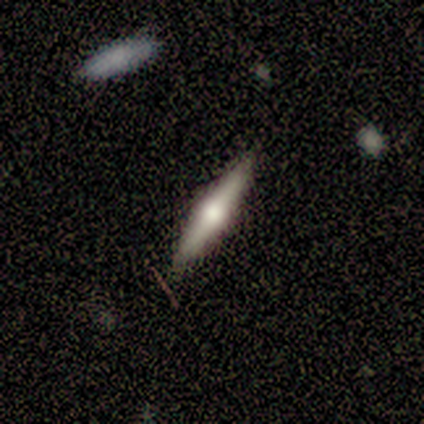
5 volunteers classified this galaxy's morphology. A featured or disk galaxy (60%) viewed edge-on (100%) with a rounded central bulge (100%).

Vote fractions:
- Smooth or featured? featured or disk: 60% / smooth: 40% / star or artifact: 0%
- Edge-on disk? yes: 100% / no: 0%
- Edge-on bulge? rounded: 100% / boxy: 0% / none: 0%
- Merging? none: 80% / major disturbance: 20% / minor disturbance: 0% / merger: 0%